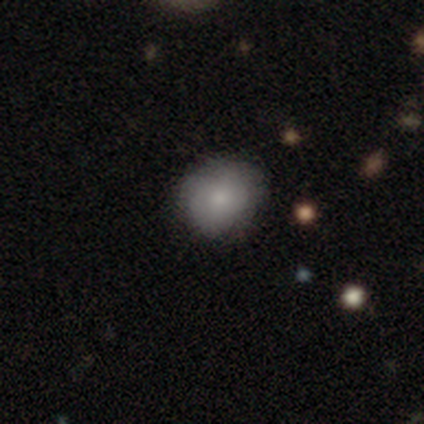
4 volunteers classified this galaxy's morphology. smooth_or_featured: smooth (p=1.00)
how_rounded: round (p=0.50) [tied with: in between p=0.50]
merging: none (p=0.75) [alt: minor disturbance p=0.25]